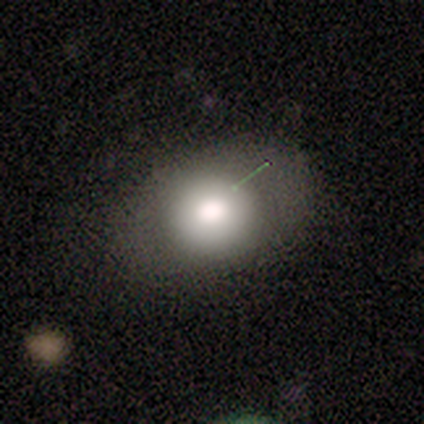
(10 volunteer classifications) This appears to be a smooth galaxy with no disk features (50%) that is round (60%). Merging: none (67%).